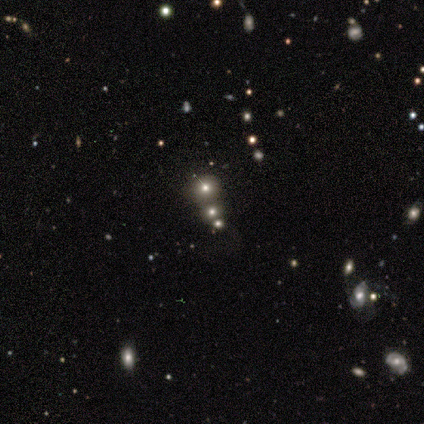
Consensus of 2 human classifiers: smooth-or-featured: smooth: 50% (tied) | featured or disk: 50% (tied) | star or artifact: 0%
  how-rounded: round: 100% | in between: 0% | cigar-shaped: 0%
  merging: minor disturbance: 50% (tied) | merger: 50% (tied) | none: 0% | major disturbance: 0%